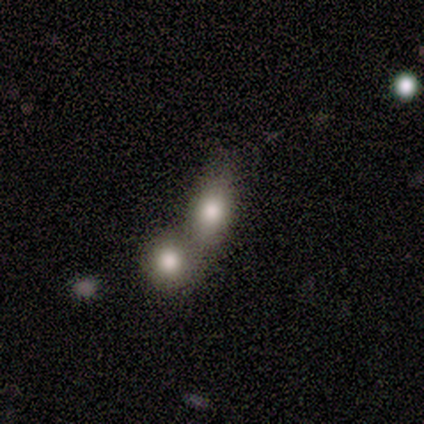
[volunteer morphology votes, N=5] Volunteers were most divided on "how rounded": in between: 67%, round: 33%, cigar-shaped: 0%. More confident: merging — merger (75%); smooth or featured — smooth (60%).